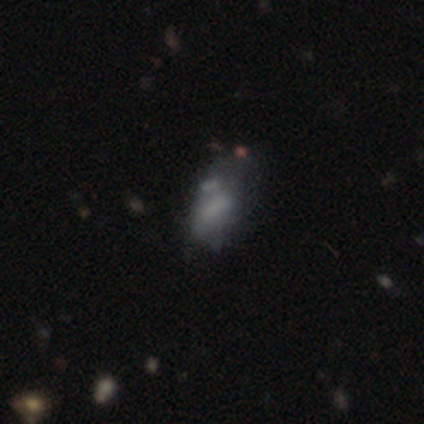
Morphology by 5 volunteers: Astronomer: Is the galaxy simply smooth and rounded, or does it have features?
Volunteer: smooth — 40%, tied with star or artifact at 40%.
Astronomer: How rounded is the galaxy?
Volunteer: in between — 100%.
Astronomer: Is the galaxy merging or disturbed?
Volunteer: minor disturbance — 67%.